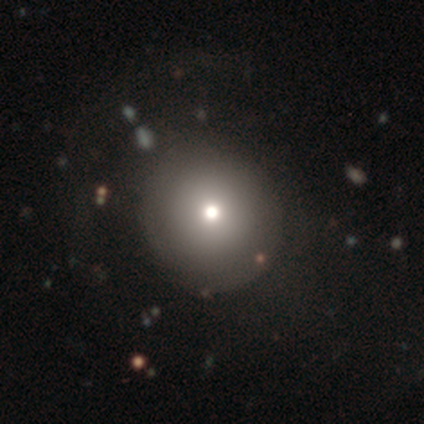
smooth 50% (tied), star or artifact 50% (tied), featured or disk 0%. Down the decision tree: how rounded — round (100%); merging — none (100%).